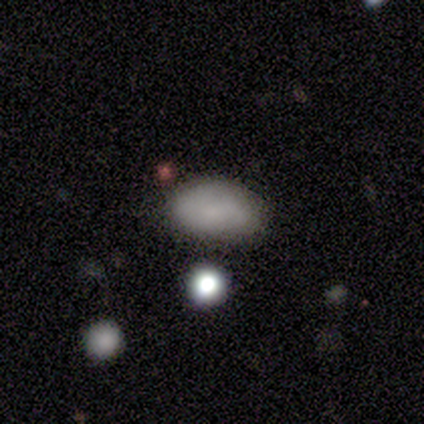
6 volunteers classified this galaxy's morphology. smooth 67%, featured or disk 17%, star or artifact 17%. Down the decision tree: how rounded — in between (75%); merging — none (60%).